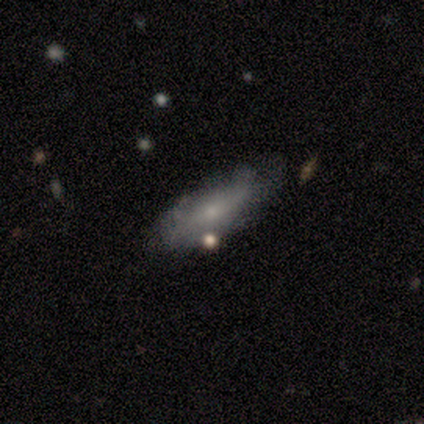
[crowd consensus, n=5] A smooth galaxy with no disk features (60%) that is cigar-shaped (100%). Merging: none (80%).